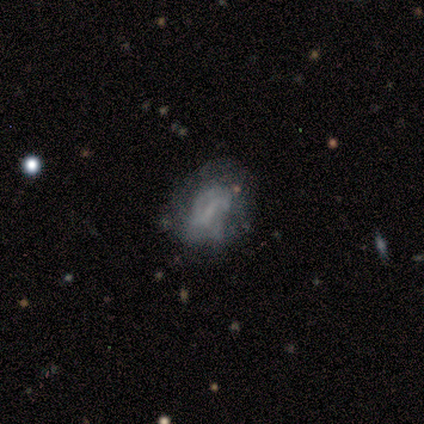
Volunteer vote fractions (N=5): Smooth or featured? 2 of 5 (40%, tied with star or artifact) said featured or disk. Edge-on disk? 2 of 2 (100%) said no. Bar? 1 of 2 (50%, tied with no) said weak. Spiral arms? 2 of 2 (100%) said no. Bulge size? 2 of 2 (100%) said none. Merging? 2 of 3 (67%) said none.